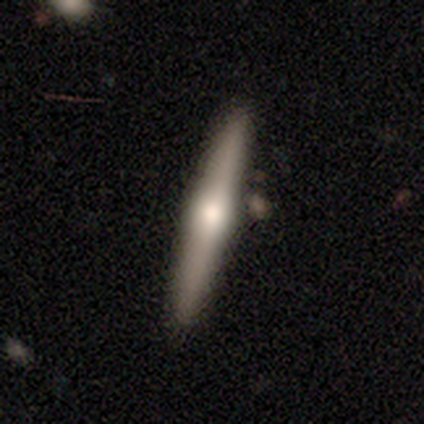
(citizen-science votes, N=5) Q: Smooth or featured?
A: featured or disk (100%)
Q: Edge-on disk?
A: yes (100%)
Q: Edge-on bulge?
A: rounded (100%)
Q: Merging?
A: none (100%)